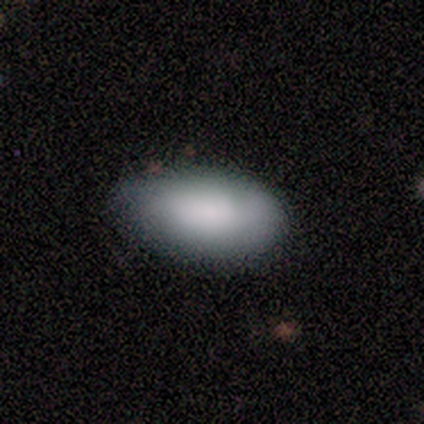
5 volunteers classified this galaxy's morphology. A smooth galaxy with no disk features (80%) that is in between round and cigar-shaped (100%).

Vote fractions:
- Smooth or featured? smooth: 80% / star or artifact: 20% / featured or disk: 0%
- How rounded? in between: 100% / round: 0% / cigar-shaped: 0%
- Merging? none: 100% / minor disturbance: 0% / major disturbance: 0% / merger: 0%